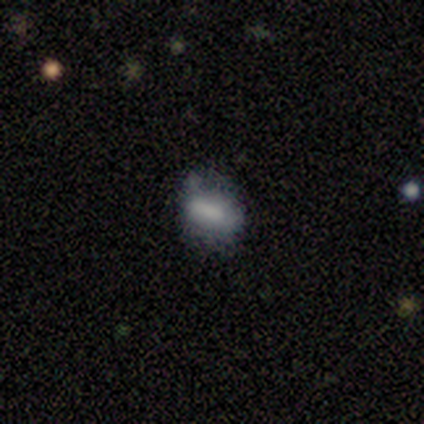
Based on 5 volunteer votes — Q: Smooth or featured?
A: smooth (80%); runner-up: featured or disk (20%)
Q: How rounded?
A: round (50%); tied with: in between (50%)
Q: Merging?
A: none (80%); runner-up: major disturbance (20%)